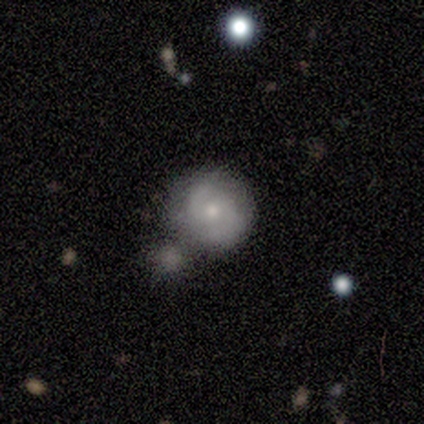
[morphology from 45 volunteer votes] Smooth or featured: featured or disk — 53% (smooth — 40%)
Edge-on disk: no — 96% (yes — 4%)
Bar: no — 83% (weak — 17%)
Spiral arms: yes — 96% (no — 4%)
Spiral winding: medium — 45% (tight — 41%)
Spiral arm count: 2 — 91% (can't tell — 9%)
Bulge size: moderate — 74% (small — 26%)
Merging: none — 57% (merger — 24%)